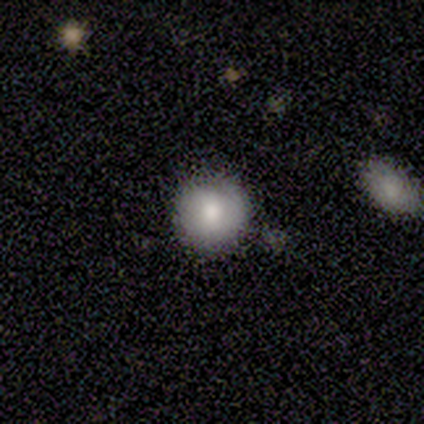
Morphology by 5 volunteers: Smooth or featured? 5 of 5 (100%) said smooth. How rounded? 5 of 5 (100%) said round. Merging? 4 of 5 (80%) said none.